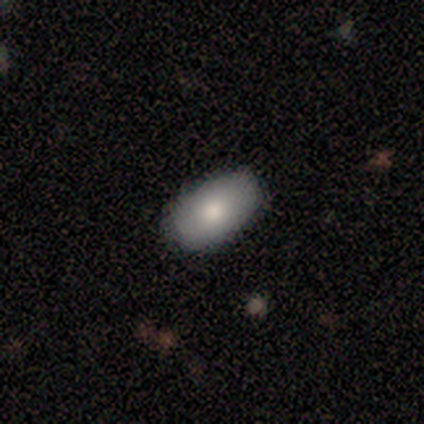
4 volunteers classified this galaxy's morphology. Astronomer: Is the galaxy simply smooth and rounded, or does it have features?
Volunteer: smooth — 100%.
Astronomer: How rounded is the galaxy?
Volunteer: in between — 100%.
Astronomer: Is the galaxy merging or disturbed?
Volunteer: none — 100%.